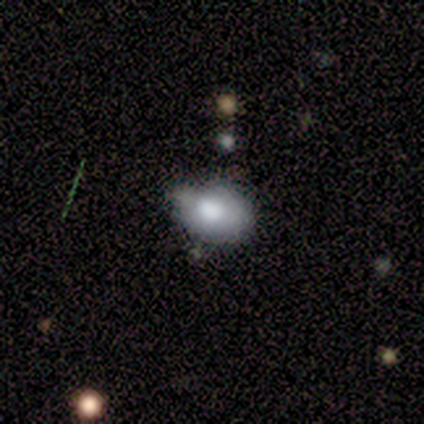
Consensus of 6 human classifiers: This is likely a smooth galaxy (67%). How rounded: clearly in between (100%). Merging: likely minor disturbance (67%).